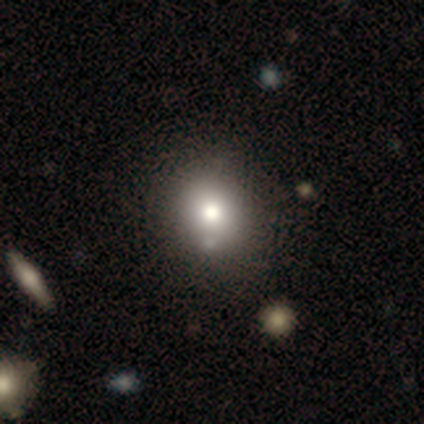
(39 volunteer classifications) A smooth galaxy with no disk features (74%) that is round (59%).

Vote fractions:
- Smooth or featured? smooth: 74% / featured or disk: 21% / star or artifact: 5%
- How rounded? round: 59% / in between: 41% / cigar-shaped: 0%
- Merging? none: 65% / merger: 8% / minor disturbance: 3% / major disturbance: 3%